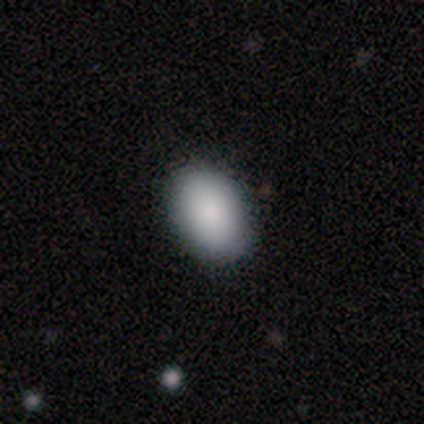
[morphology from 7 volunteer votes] Smooth or featured: smooth — 86% (featured or disk — 14%)
How rounded: in between — 100%
Merging: none — 57% (minor disturbance — 29%)